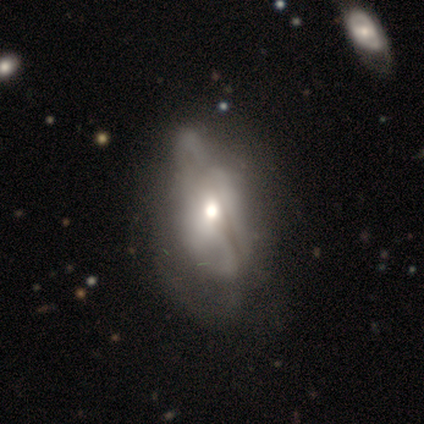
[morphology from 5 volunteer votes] featured or disk 60%, smooth 40%, star or artifact 0%. Down the decision tree: edge-on disk — no (67%); bar — no (100%); spiral arms — no (100%); bulge size — moderate (100%); merging — none (40%, tied with major disturbance).